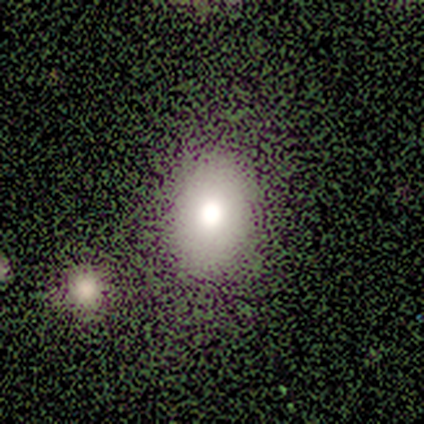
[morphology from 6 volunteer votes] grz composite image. It shows a smooth galaxy with no disk features (83%) that is in between round and cigar-shaped (60%). Merging: none (83%).